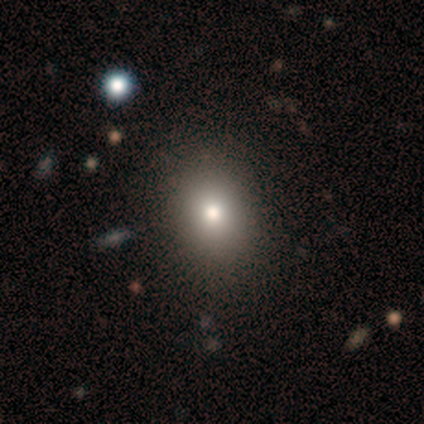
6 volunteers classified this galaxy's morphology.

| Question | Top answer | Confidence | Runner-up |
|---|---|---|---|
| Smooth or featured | smooth | 67% | star or artifact (33%) |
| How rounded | round | 50% | tied: in between (50%) |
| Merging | none | 100% | — |